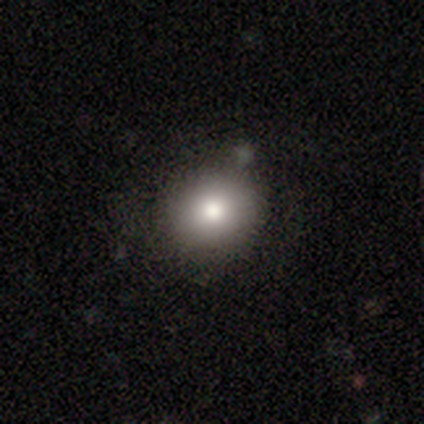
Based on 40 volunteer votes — Smooth or featured? 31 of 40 (78%) said smooth. How rounded? 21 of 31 (68%) said round. Merging? 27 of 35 (77%) said none.